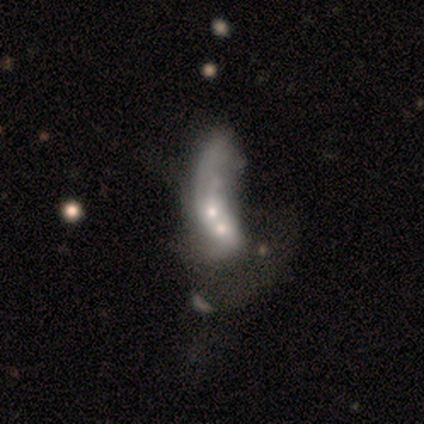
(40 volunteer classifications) Smooth or featured: featured or disk — 62% (smooth — 32%)
Edge-on disk: no — 96% (yes — 4%)
Bar: no — 92% (strong — 4%)
Spiral arms: no — 75% (yes — 25%)
Bulge size: moderate — 50% (small — 33%)
Merging: merger — 63% (major disturbance — 5%)